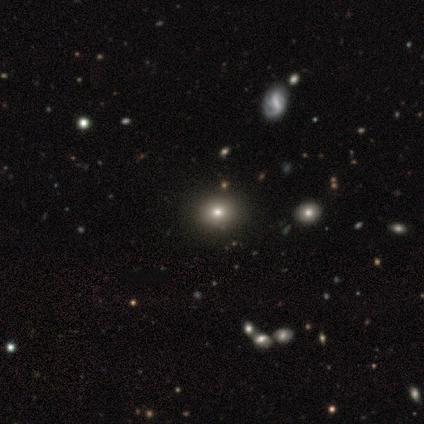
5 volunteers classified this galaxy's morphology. Smooth or featured? smooth (100%)
How rounded? round (80%)
Merging? none (100%)